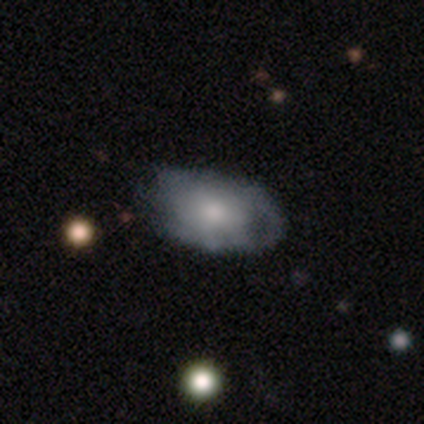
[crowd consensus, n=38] Morphology: type=smooth (47%); roundness=in between (89%); merging=none (31%).